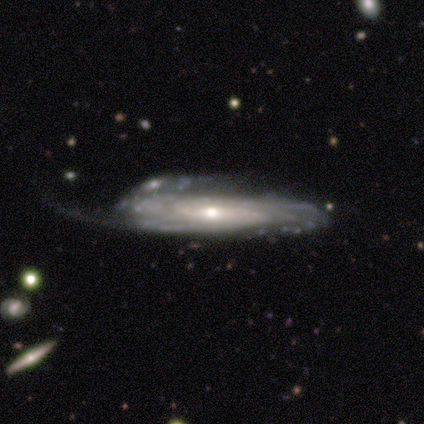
Smooth or featured: featured or disk — 100%
Edge-on disk: no — 67% (yes — 33%)
Bar: no — 100%
Spiral arms: yes — 100%
Spiral winding: tight — 100%
Spiral arm count: can't tell — 100%
Bulge size: moderate — 50% (tied with small — 50%)
Merging: minor disturbance — 33% (tied with major disturbance — 33%; merger — 33%)